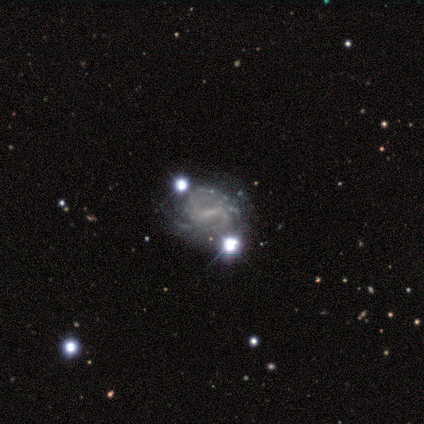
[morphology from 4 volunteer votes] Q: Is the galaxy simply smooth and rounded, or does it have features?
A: featured or disk — 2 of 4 (50%).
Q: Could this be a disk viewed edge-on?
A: no — 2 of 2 (100%).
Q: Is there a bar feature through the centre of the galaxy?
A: strong — 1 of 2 (50%, tied with no).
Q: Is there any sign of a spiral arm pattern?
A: yes — 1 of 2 (50%, tied with no).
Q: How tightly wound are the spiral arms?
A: tight — 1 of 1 (100%).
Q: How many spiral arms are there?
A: can't tell — 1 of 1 (100%).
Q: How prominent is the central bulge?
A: small — 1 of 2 (50%, tied with none).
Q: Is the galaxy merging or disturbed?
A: minor disturbance — 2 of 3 (67%).